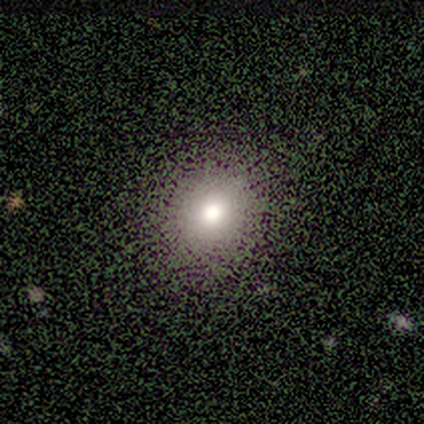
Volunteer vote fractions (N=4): A smooth galaxy with no disk features (75%) that is round (100%).

Vote fractions:
- Smooth or featured? smooth: 75% / star or artifact: 25% / featured or disk: 0%
- How rounded? round: 100% / in between: 0% / cigar-shaped: 0%
- Merging? none: 67% / minor disturbance: 33% / major disturbance: 0% / merger: 0%